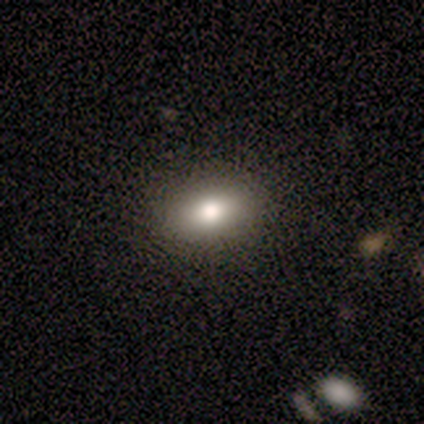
This appears to be a smooth galaxy with no disk features (80%) that is in between round and cigar-shaped (100%). Merging: none (80%).